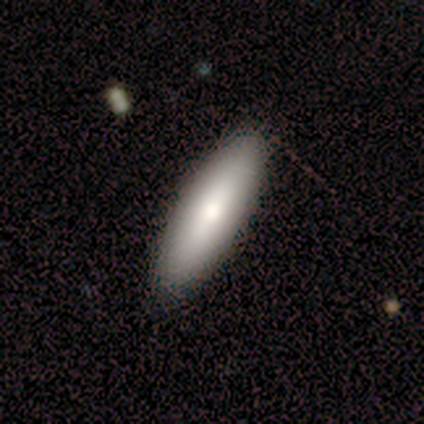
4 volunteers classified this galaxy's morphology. smooth-or-featured: smooth: 75% | featured or disk: 25% | star or artifact: 0%
  how-rounded: in between: 100% | round: 0% | cigar-shaped: 0%
  merging: none: 100% | minor disturbance: 0% | major disturbance: 0% | merger: 0%